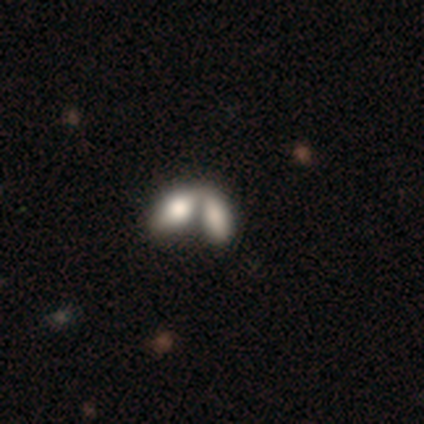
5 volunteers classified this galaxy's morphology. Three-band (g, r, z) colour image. It shows a smooth galaxy with no disk features (60%) that is in between round and cigar-shaped (67%). Merging: merger (100%).